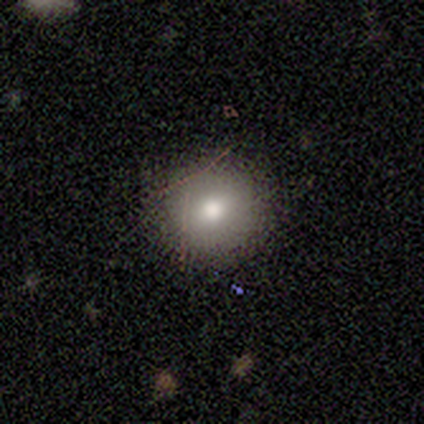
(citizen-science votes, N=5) Smooth or featured? 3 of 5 (60%) said smooth. How rounded? 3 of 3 (100%) said round. Merging? 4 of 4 (100%) said none.